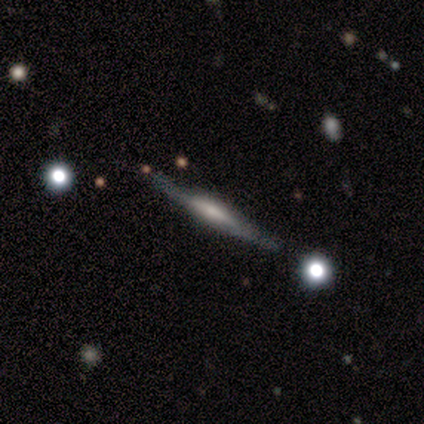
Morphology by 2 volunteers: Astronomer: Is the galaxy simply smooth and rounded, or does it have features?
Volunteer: smooth — 50%, tied with featured or disk at 50%.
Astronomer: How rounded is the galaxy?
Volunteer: cigar-shaped — 100%.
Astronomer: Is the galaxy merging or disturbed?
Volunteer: none — 100%.